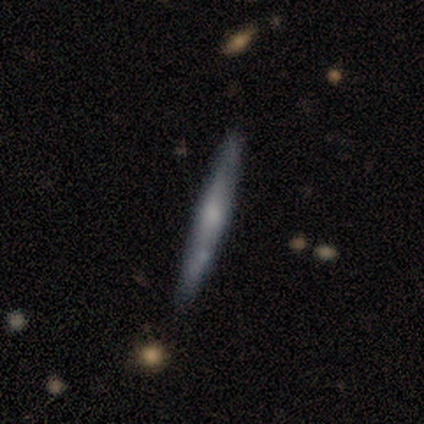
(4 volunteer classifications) Morphology: type=smooth (75%); roundness=cigar-shaped (100%); merging=none (100%).